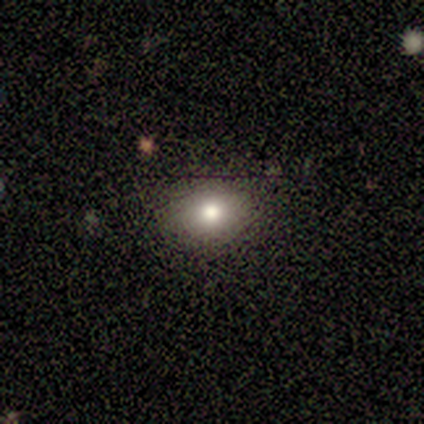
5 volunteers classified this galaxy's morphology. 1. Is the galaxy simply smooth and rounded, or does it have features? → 80% smooth, 20% featured or disk, 0% star or artifact.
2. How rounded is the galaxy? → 75% in between, 25% round, 0% cigar-shaped.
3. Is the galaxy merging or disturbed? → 80% none, 20% minor disturbance, 0% major disturbance, 0% merger.